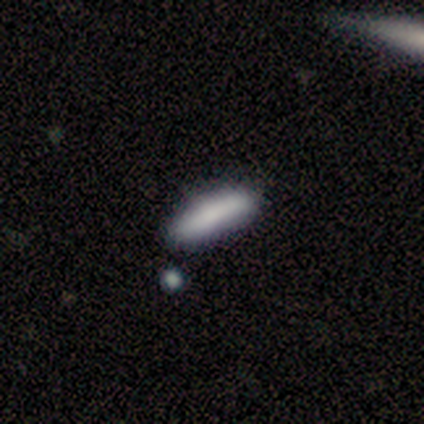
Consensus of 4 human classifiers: This appears to be a smooth galaxy with no disk features (75%) that is cigar-shaped (67%). Merging: none (100%).